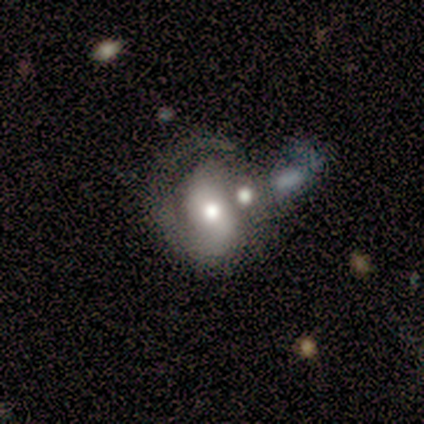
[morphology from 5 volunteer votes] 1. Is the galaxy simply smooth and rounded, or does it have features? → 80% smooth, 20% featured or disk, 0% star or artifact.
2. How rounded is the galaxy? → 50% round (tied), 50% in between (tied), 0% cigar-shaped.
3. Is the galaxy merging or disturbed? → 60% major disturbance, 20% minor disturbance, 20% merger, 0% none.